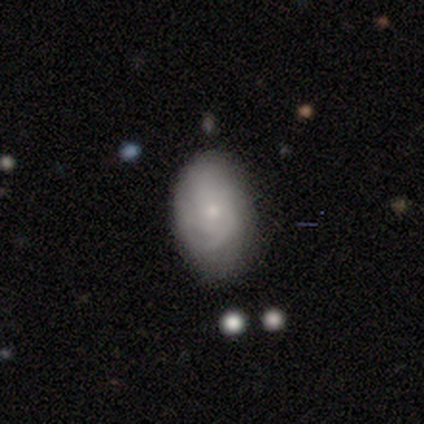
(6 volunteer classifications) Smooth or featured: smooth — 50% (tied with featured or disk — 50%)
How rounded: in between — 100%
Merging: none — 50% (minor disturbance — 33%)